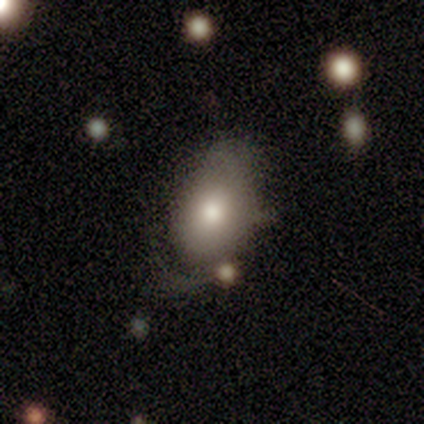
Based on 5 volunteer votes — smooth 80%, featured or disk 20%, star or artifact 0%. Down the decision tree: how rounded — in between (100%); merging — none (80%).